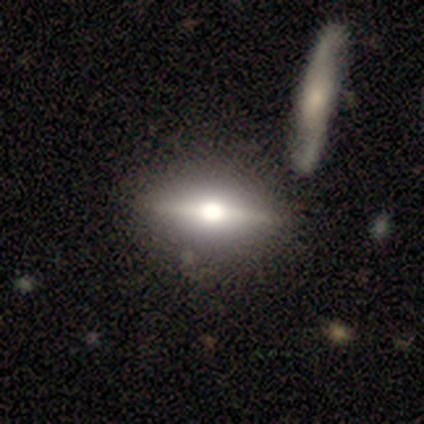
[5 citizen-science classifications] Smooth or featured?
  - featured or disk: 80% *
  - star or artifact: 20%
  - smooth: 0%
Edge-on disk?
  - yes: 100% *
  - no: 0%
Edge-on bulge?
  - rounded: 100% *
  - boxy: 0%
  - none: 0%
Merging?
  - none: 50% * (tied)
  - merger: 50% * (tied)
  - minor disturbance: 0%
  - major disturbance: 0%